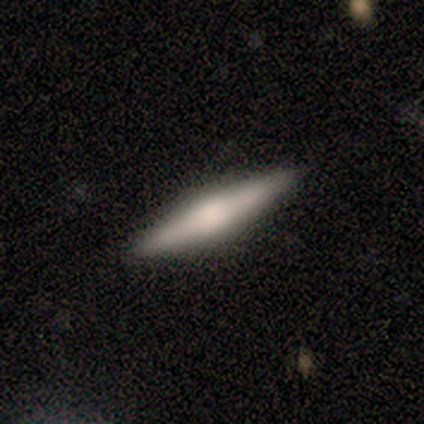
Smooth or featured?
  - smooth: 60% *
  - featured or disk: 40%
  - star or artifact: 0%
How rounded?
  - cigar-shaped: 100% *
  - round: 0%
  - in between: 0%
Merging?
  - none: 100% *
  - minor disturbance: 0%
  - major disturbance: 0%
  - merger: 0%